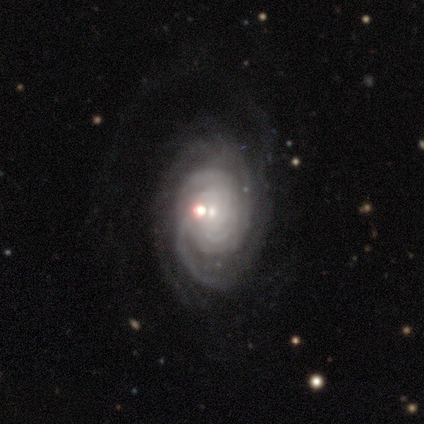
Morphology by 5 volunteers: A featured or disk galaxy (80%) with a weak bar (50%, tied with no), 2 (50%) tight (75%) spiral arms (100%) and a small central bulge (100%). Merging: minor disturbance (80%).